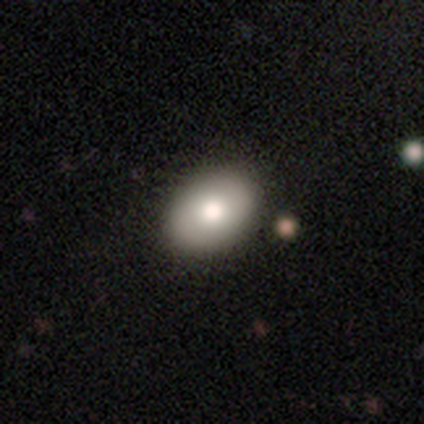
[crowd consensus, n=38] Morphology: type=smooth (79%); roundness=in between (77%); merging=none (68%).